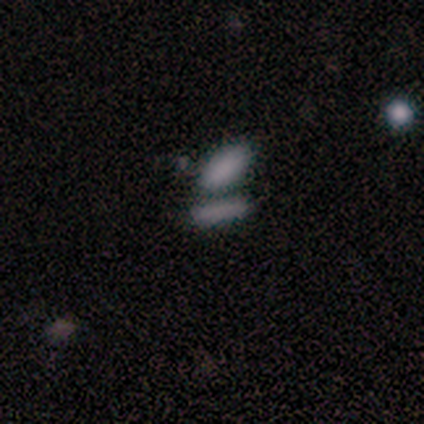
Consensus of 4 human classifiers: smooth_or_featured: smooth (p=1.00)
how_rounded: in between (p=1.00)
merging: none (p=0.50) [tied with: merger p=0.50]